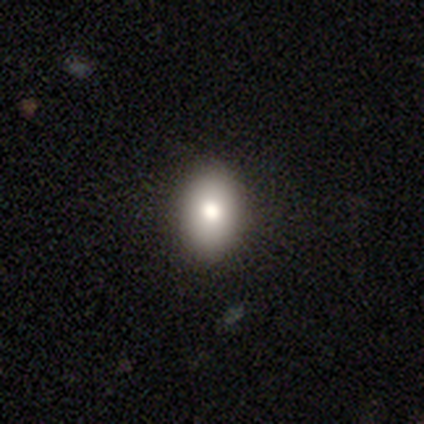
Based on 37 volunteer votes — This is clearly a smooth galaxy (86%). How rounded: clearly in between (81%). Merging: clearly none (89%).